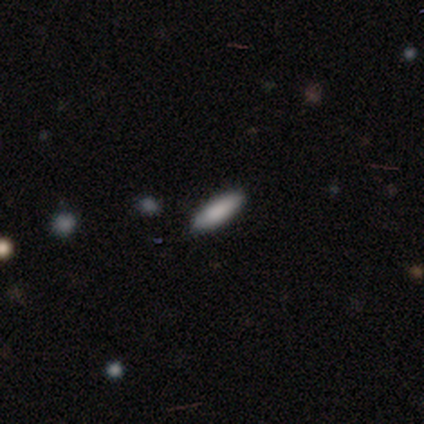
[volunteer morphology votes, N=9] This is clearly a smooth galaxy (89%). How rounded: clearly cigar-shaped (88%). Merging: clearly none (89%).